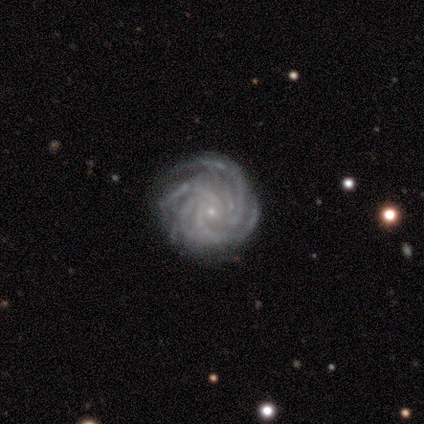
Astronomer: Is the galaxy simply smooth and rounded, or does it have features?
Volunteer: featured or disk — 89%.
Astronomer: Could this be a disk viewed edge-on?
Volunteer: no — 100%.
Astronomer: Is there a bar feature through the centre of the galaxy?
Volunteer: no — 88%.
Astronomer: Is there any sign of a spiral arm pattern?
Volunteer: yes — 100%.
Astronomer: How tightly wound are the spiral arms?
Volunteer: tight — 75%.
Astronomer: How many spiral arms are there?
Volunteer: more than 4 — 50%.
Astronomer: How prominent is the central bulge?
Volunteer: small — 100%.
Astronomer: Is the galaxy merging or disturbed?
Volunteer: none — 88%.